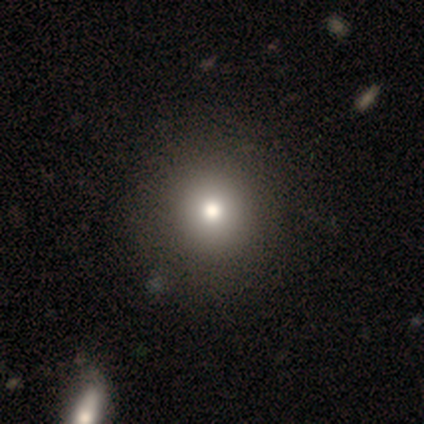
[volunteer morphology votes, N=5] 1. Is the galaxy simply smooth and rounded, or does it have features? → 60% smooth, 20% featured or disk, 20% star or artifact.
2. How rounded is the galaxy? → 67% round, 33% in between, 0% cigar-shaped.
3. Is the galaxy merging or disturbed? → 75% none, 25% merger, 0% minor disturbance, 0% major disturbance.